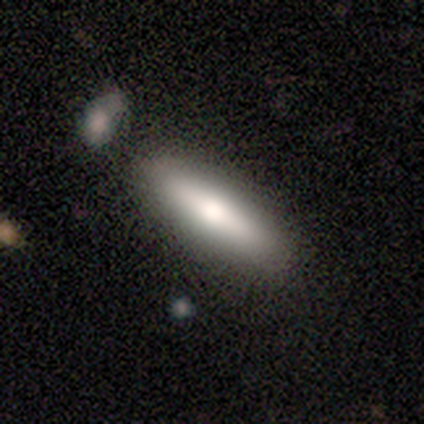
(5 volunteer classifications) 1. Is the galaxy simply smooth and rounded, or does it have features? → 100% smooth, 0% featured or disk, 0% star or artifact.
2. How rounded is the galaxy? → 100% cigar-shaped, 0% round, 0% in between.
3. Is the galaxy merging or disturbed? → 80% none, 20% merger, 0% minor disturbance, 0% major disturbance.